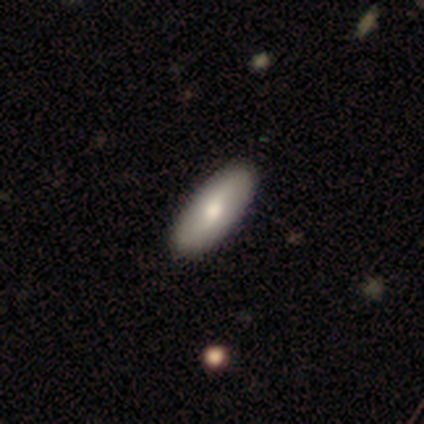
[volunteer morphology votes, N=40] Volunteers were most divided on "smooth or featured": smooth: 57%, featured or disk: 40%, star or artifact: 2%. More confident: how rounded — in between (74%); merging — none (62%).